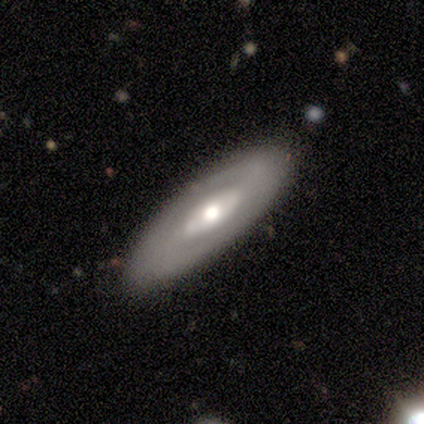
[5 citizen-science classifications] smooth_or_featured: featured or disk (p=0.60) [alt: smooth p=0.40]
disk_edge_on: no (p=1.00)
bar: no (p=0.67) [alt: strong p=0.33]
has_spiral_arms: no (p=0.67) [alt: yes p=0.33]
bulge_size: moderate (p=1.00)
merging: none (p=0.80) [alt: minor disturbance p=0.20]